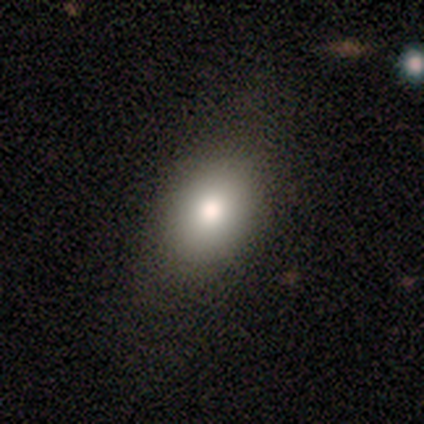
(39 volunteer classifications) This is likely a smooth galaxy (77%). How rounded: clearly in between (83%). Merging: likely none (72%).